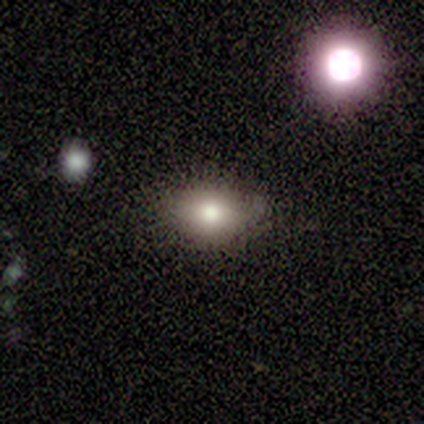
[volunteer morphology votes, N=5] This appears to be a smooth galaxy with no disk features (60%) that is in between round and cigar-shaped (67%). Merging: none (100%).